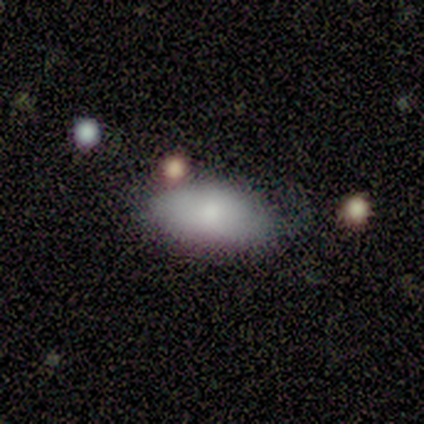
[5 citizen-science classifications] smooth_or_featured: smooth (p=0.60) [alt: featured or disk p=0.20]
how_rounded: in between (p=1.00)
merging: none (p=0.75) [alt: major disturbance p=0.25]